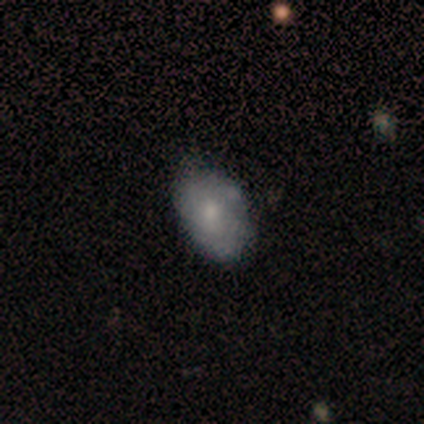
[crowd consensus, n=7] Morphology: type=smooth (71%); roundness=in between (60%); merging=none (71%).